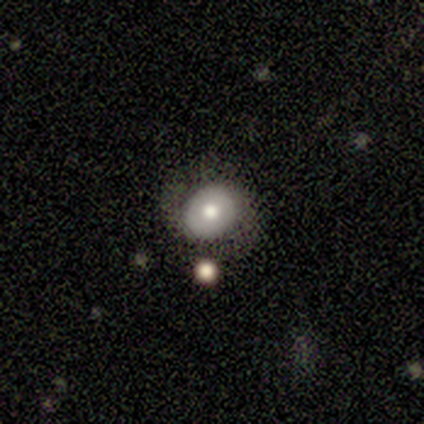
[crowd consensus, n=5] featured or disk 80%, star or artifact 20%, smooth 0%. Down the decision tree: edge-on disk — no (100%); bar — no (100%); spiral arms — yes (75%); spiral arm count — 2 (100%); spiral winding — medium (67%); bulge size — small (50%); merging — none (75%).